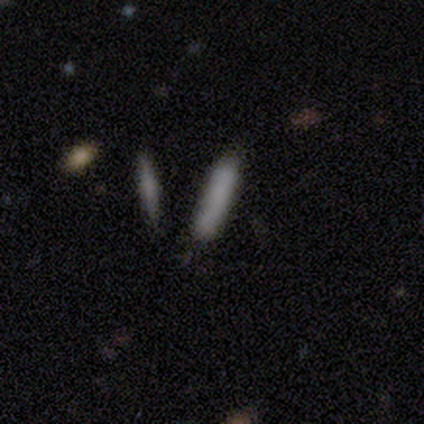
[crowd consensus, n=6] Smooth or featured?
  - smooth: 50% * (tied)
  - featured or disk: 50% * (tied)
  - star or artifact: 0%
How rounded?
  - cigar-shaped: 100% *
  - round: 0%
  - in between: 0%
Merging?
  - none: 83% *
  - major disturbance: 17%
  - minor disturbance: 0%
  - merger: 0%